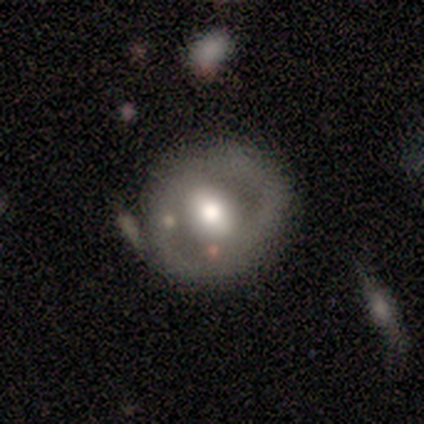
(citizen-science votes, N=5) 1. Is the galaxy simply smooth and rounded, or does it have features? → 60% featured or disk, 20% smooth, 20% star or artifact.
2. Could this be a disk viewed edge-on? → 100% no, 0% yes.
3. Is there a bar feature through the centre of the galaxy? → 67% weak, 33% strong, 0% no.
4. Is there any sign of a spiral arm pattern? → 67% no, 33% yes.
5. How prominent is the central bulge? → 100% moderate, 0% dominant, 0% large, 0% small, 0% none.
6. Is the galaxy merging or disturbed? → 75% none, 25% minor disturbance, 0% major disturbance, 0% merger.